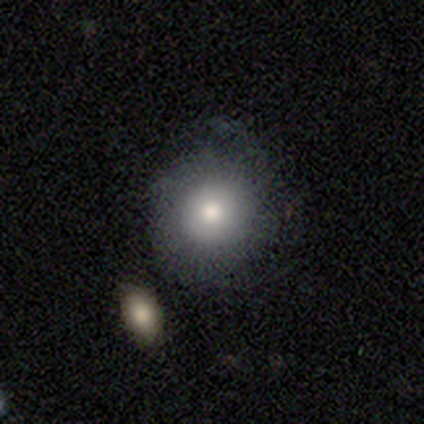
Smooth or featured?
  - smooth: 76% *
  - featured or disk: 18%
  - star or artifact: 5%
How rounded?
  - round: 90% *
  - in between: 10%
  - cigar-shaped: 0%
Merging?
  - none: 44% *
  - minor disturbance: 22%
  - merger: 6%
  - major disturbance: 3%